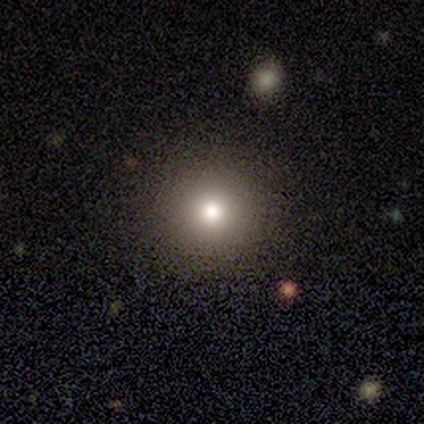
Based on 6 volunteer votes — smooth-or-featured: smooth: 83% | featured or disk: 17% | star or artifact: 0%
  how-rounded: round: 100% | in between: 0% | cigar-shaped: 0%
  merging: none: 83% | minor disturbance: 17% | major disturbance: 0% | merger: 0%